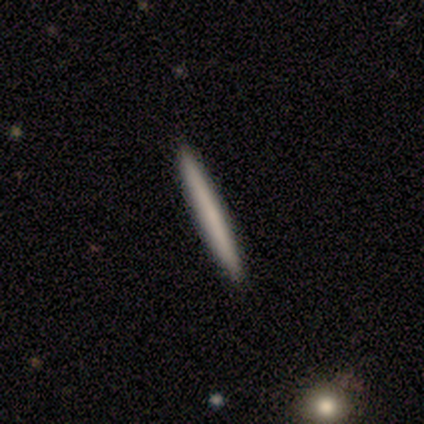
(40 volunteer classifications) Q: Smooth or featured?
A: smooth (57%); runner-up: featured or disk (42%)
Q: How rounded?
A: cigar-shaped (100%)
Q: Merging?
A: none (65%); runner-up: minor disturbance (2%)